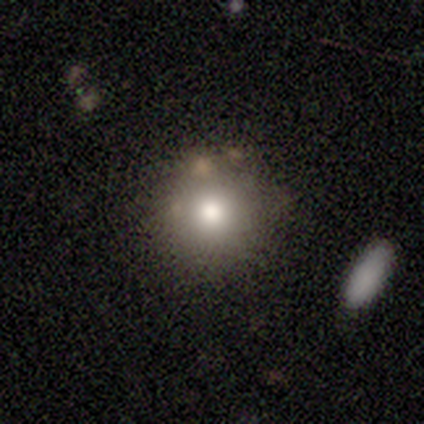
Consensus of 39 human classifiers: Smooth or featured?
  - smooth: 56% *
  - featured or disk: 31%
  - star or artifact: 13%
How rounded?
  - round: 95% *
  - in between: 5%
  - cigar-shaped: 0%
Merging?
  - none: 82% *
  - minor disturbance: 12%
  - merger: 6%
  - major disturbance: 0%